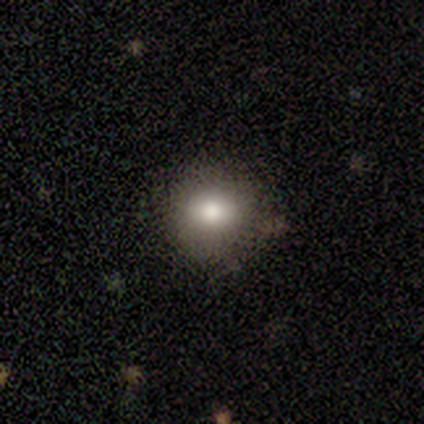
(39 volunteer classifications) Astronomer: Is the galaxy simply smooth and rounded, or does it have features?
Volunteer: smooth — 79%.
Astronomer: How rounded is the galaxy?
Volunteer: round — 81%.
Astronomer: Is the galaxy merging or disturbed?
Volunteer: none — 82%.